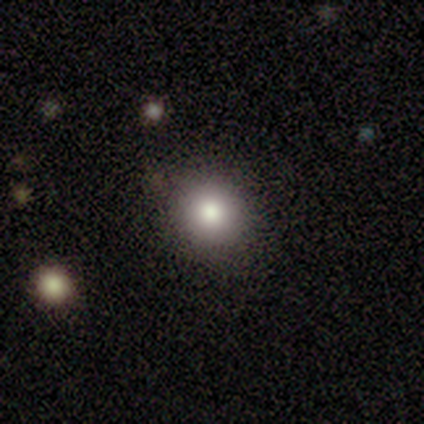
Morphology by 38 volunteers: Smooth or featured? 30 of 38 (79%) said smooth. How rounded? 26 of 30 (87%) said round. Merging? 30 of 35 (86%) said none.